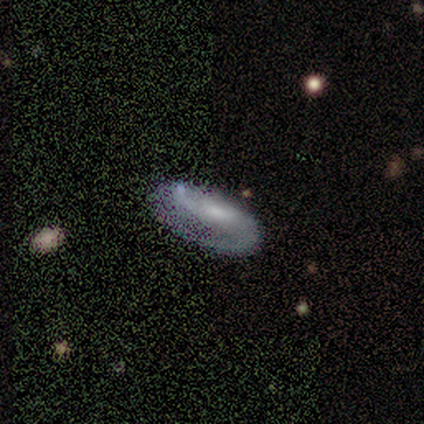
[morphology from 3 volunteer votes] Volunteers were most divided on "how rounded" (2-way tie): in between: 50%, cigar-shaped: 50%, round: 0%. More confident: smooth or featured — smooth (67%); merging — major disturbance (67%).